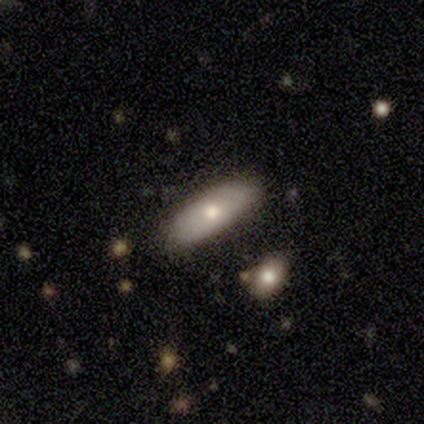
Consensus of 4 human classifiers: A smooth galaxy with no disk features (50%, tied with featured or disk) that is in between round and cigar-shaped (50%, tied with cigar-shaped). Merging: none (100%).